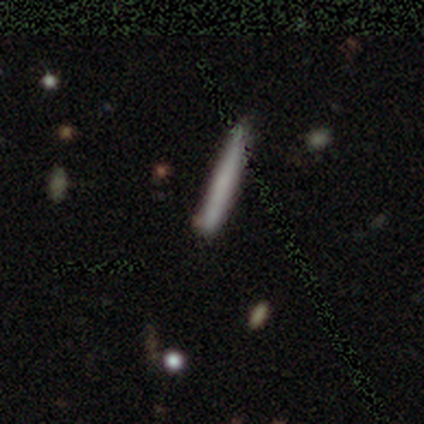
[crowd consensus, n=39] Morphology: type=smooth (51%); roundness=cigar-shaped (95%); merging=none (88%).